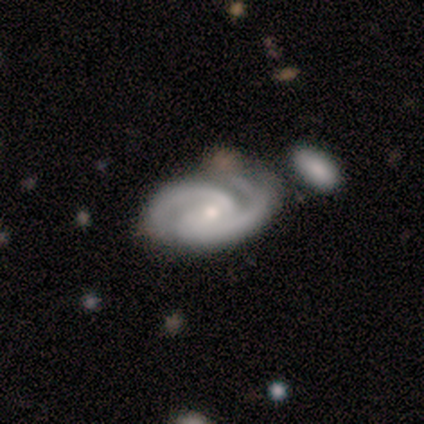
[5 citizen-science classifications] A featured or disk galaxy (100%) with a weak bar (60%), 2 (80%) tight (60%) spiral arms (100%) and a moderate central bulge (80%). Merging: none (40%, tied with minor disturbance).